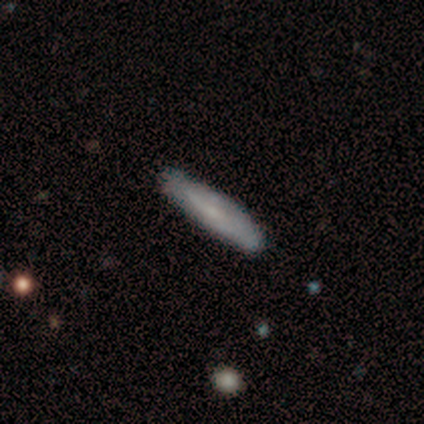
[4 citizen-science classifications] smooth_or_featured: smooth (p=0.50) [alt: featured or disk p=0.25]
how_rounded: cigar-shaped (p=1.00)
merging: none (p=1.00)